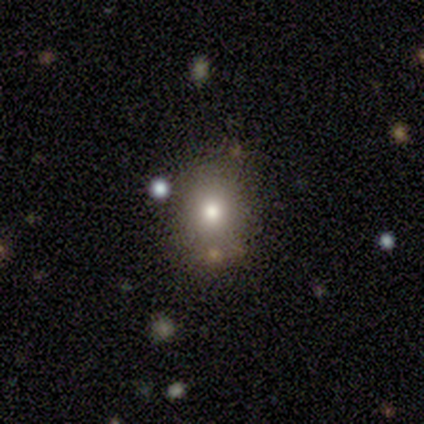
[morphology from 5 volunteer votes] Overall: smooth (60%; featured or disk 40%). How rounded: round (67%; in between 33%). Merging: none (100%).